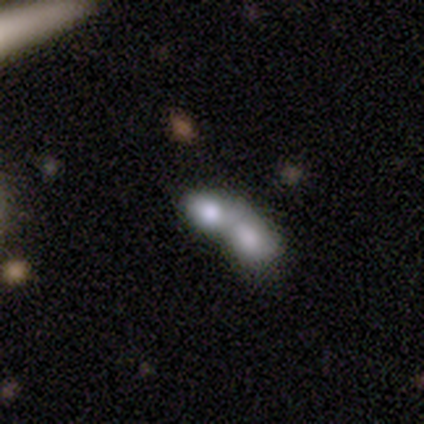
smooth_or_featured: smooth (p=0.72) [alt: featured or disk p=0.15]
how_rounded: in between (p=0.68) [alt: round p=0.25]
merging: merger (p=0.62)